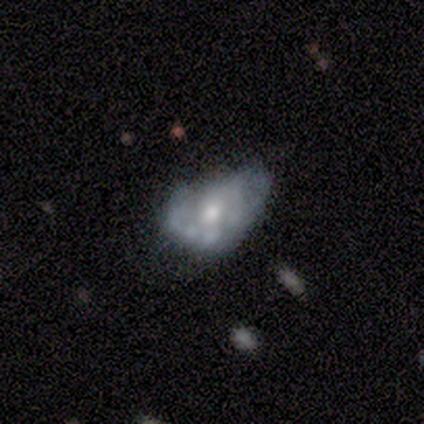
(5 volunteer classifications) Morphology: type=featured or disk (80%); edge-on=no (100%); bar=no (75%); spiral arms=no (75%); bulge=large (50%); merging=major disturbance (60%).